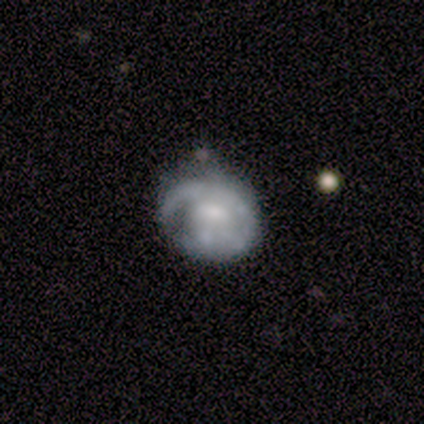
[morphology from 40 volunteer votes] A featured or disk galaxy (82%) with no bar (73%), no spiral arms (55%) and a moderate central bulge (42%).

Vote fractions:
- Smooth or featured? featured or disk: 82% / smooth: 15% / star or artifact: 2%
- Edge-on disk? no: 100% / yes: 0%
- Bar? no: 73% / weak: 24% / strong: 3%
- Spiral arms? no: 55% / yes: 45%
- Bulge size? moderate: 42% / small: 39% / none: 12% / dominant: 3% / large: 3%
- Merging? minor disturbance: 38% / none: 36% / major disturbance: 21% / merger: 5%